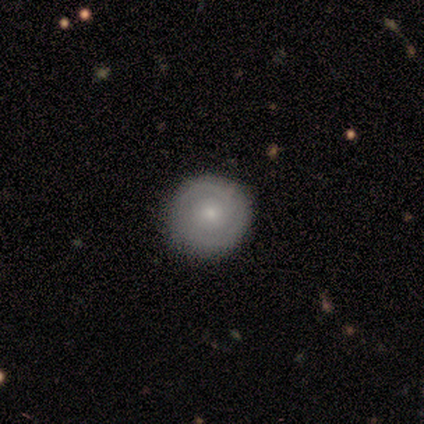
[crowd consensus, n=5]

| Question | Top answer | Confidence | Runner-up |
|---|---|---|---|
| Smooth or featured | smooth | 40% | tied: featured or disk (40%) |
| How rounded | round | 100% | — |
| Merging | none | 75% | minor disturbance (25%) |